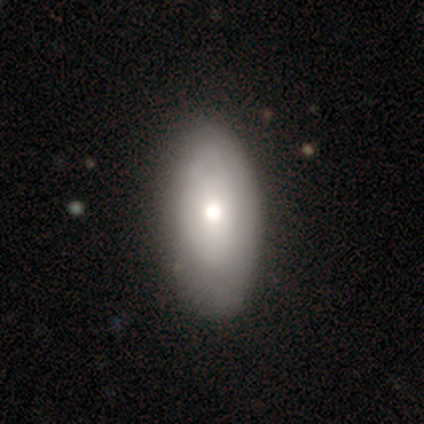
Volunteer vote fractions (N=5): Smooth or featured?
  - smooth: 80% *
  - featured or disk: 20%
  - star or artifact: 0%
How rounded?
  - in between: 75% *
  - cigar-shaped: 25%
  - round: 0%
Merging?
  - none: 80% *
  - minor disturbance: 20%
  - major disturbance: 0%
  - merger: 0%